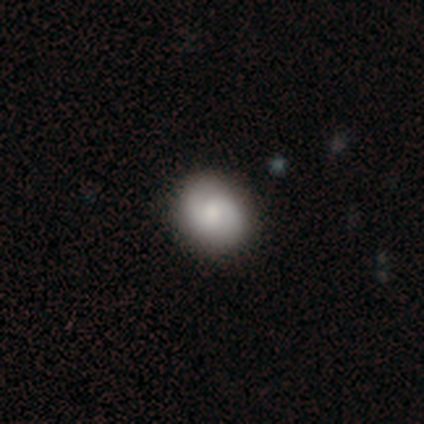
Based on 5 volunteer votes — A featured or disk galaxy (60%) with no bar (100%), 2 (100%) loose (100%) spiral arms (100%) and a moderate central bulge (67%). Merging: none (100%).